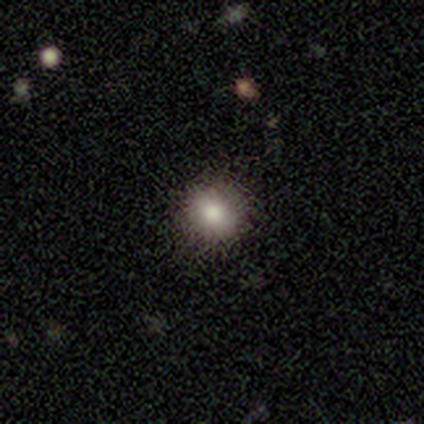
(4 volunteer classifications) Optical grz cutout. It shows a smooth galaxy with no disk features (75%) that is round (100%). Merging: none (67%).